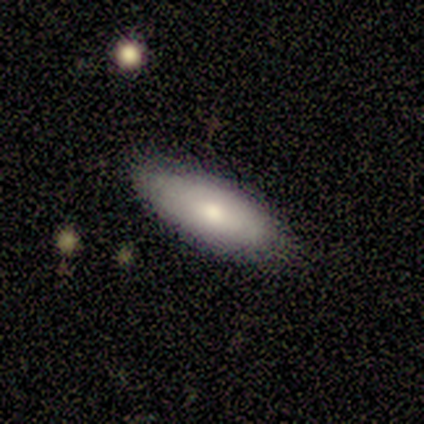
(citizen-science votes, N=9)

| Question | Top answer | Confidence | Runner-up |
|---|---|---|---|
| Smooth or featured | smooth | 56% | featured or disk (22%) |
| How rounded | in between | 60% | cigar-shaped (40%) |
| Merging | none | 86% | minor disturbance (14%) |